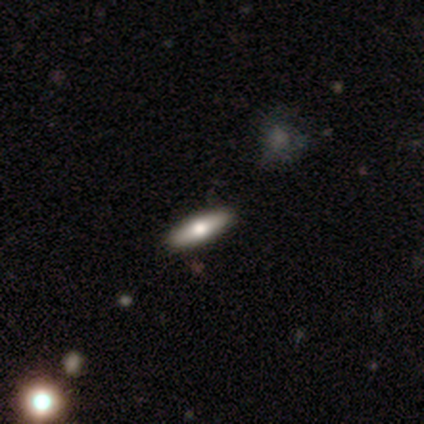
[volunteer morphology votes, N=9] This appears to be a smooth galaxy with no disk features (56%) that is cigar-shaped (60%). Merging: none (89%).